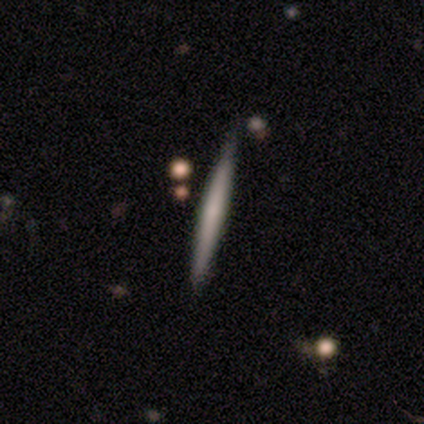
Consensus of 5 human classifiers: This appears to be a smooth galaxy with no disk features (100%) that is cigar-shaped (100%). Merging: none (100%).